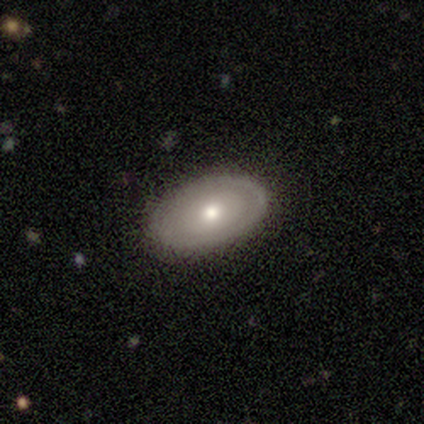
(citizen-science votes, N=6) Q: Smooth or featured?
A: smooth (50%); tied with: featured or disk (50%)
Q: How rounded?
A: in between (67%); runner-up: round (33%)
Q: Merging?
A: none (100%)